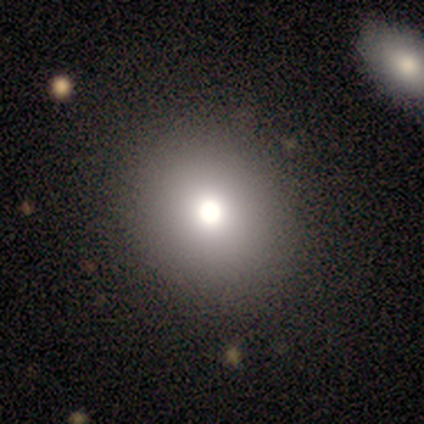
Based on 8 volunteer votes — Volunteers were most divided on "smooth or featured" (2-way tie): smooth: 50%, star or artifact: 50%, featured or disk: 0%. More confident: how rounded — round (75%); merging — none (75%).